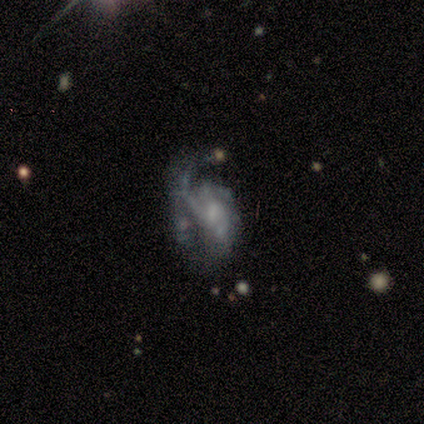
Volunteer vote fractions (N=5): Smooth or featured? 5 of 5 (100%) said featured or disk. Edge-on disk? 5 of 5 (100%) said no. Bar? 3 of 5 (60%) said weak. Spiral arms? 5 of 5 (100%) said yes. Spiral winding? 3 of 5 (60%) said loose. Spiral arm count? 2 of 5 (40%) said 1. Bulge size? 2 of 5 (40%, tied with small) said moderate. Merging? 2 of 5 (40%, tied with major disturbance) said minor disturbance.